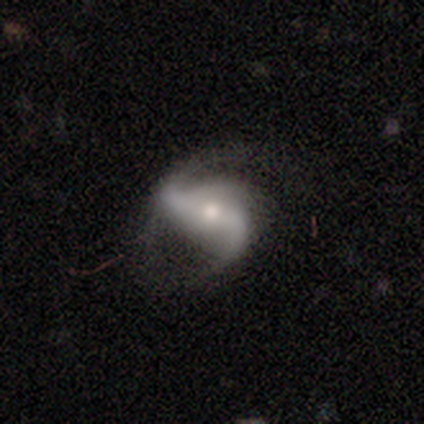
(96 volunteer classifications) Smooth or featured: featured or disk — 86% (smooth — 9%)
Edge-on disk: no — 98% (yes — 2%)
Bar: strong — 59% (weak — 27%)
Spiral arms: yes — 96% (no — 4%)
Spiral winding: loose — 63% (medium — 23%)
Spiral arm count: 2 — 87% (3 — 10%)
Bulge size: moderate — 62% (small — 30%)
Merging: none — 52% (minor disturbance — 29%)